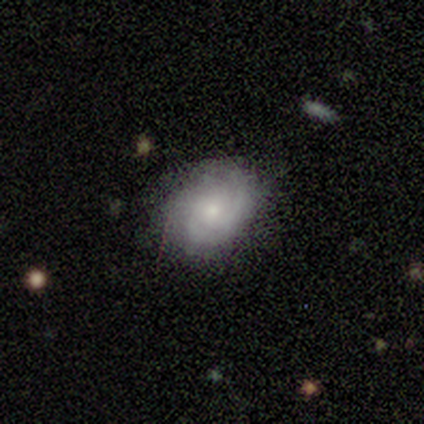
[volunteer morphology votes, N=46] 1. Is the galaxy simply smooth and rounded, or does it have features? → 67% featured or disk, 30% smooth, 2% star or artifact.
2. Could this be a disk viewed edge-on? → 100% no, 0% yes.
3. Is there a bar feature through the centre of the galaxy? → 84% no, 16% weak, 0% strong.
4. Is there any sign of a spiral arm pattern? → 97% yes, 3% no.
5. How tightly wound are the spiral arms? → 53% tight, 37% medium, 10% loose.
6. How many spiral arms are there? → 43% 2, 37% can't tell, 20% 3, 0% 1, 0% 4, 0% more than 4.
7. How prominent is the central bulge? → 61% moderate, 32% small, 3% large, 3% none, 0% dominant.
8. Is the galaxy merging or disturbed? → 64% none, 24% minor disturbance, 9% major disturbance, 2% merger.